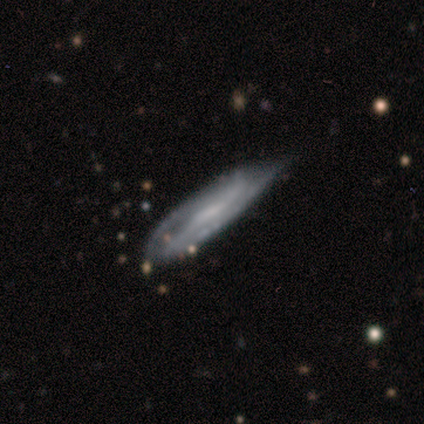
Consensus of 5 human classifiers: Smooth or featured? featured or disk (80%)
Edge-on disk? yes (50%, tied with no)
Edge-on bulge? none (100%)
Merging? minor disturbance (80%)